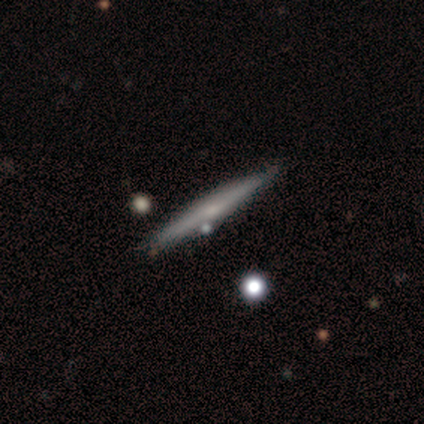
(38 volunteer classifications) Smooth or featured? 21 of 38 (55%) said featured or disk. Edge-on disk? 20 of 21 (95%) said yes. Edge-on bulge? 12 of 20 (60%) said none. Merging? 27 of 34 (79%) said none.